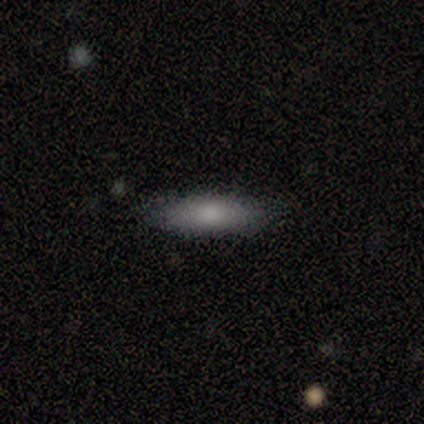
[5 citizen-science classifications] Smooth or featured?
  - smooth: 100% *
  - featured or disk: 0%
  - star or artifact: 0%
How rounded?
  - in between: 60% *
  - cigar-shaped: 40%
  - round: 0%
Merging?
  - none: 60% *
  - minor disturbance: 40%
  - major disturbance: 0%
  - merger: 0%